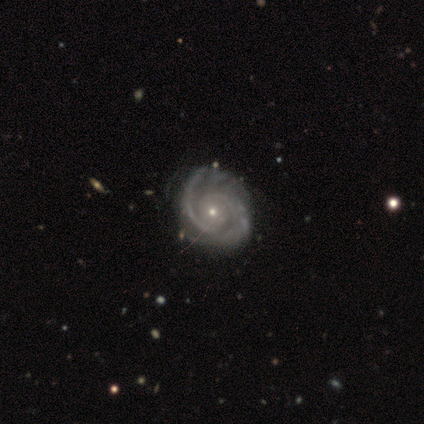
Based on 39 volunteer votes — Smooth or featured: featured or disk — 100%
Edge-on disk: no — 100%
Bar: no — 69% (weak — 23%)
Spiral arms: yes — 97% (no — 3%)
Spiral winding: tight — 66% (medium — 32%)
Spiral arm count: 2 — 84% (3 — 8%)
Bulge size: small — 74% (moderate — 26%)
Merging: none — 72% (minor disturbance — 13%)